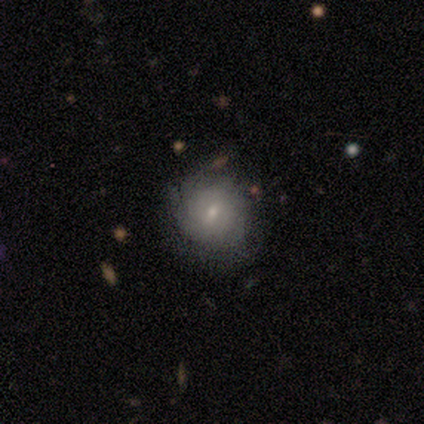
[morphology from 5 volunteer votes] Smooth or featured? 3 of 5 (60%) said featured or disk. Edge-on disk? 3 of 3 (100%) said no. Bar? 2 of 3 (67%) said weak. Spiral arms? 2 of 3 (67%) said yes. Spiral winding? 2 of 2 (100%) said tight. Spiral arm count? 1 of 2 (50%, tied with can't tell) said 4. Bulge size? 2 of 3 (67%) said small. Merging? 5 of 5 (100%) said none.